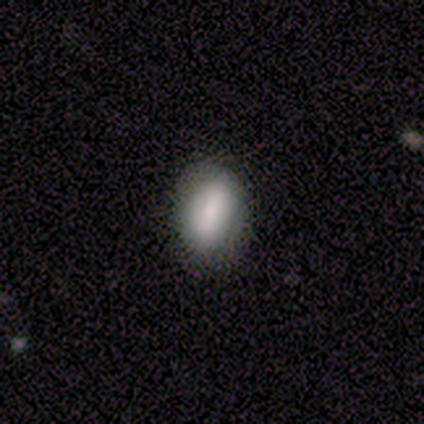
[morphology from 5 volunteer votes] type=smooth (100%); roundness=in between (80%); merging=none (80%).